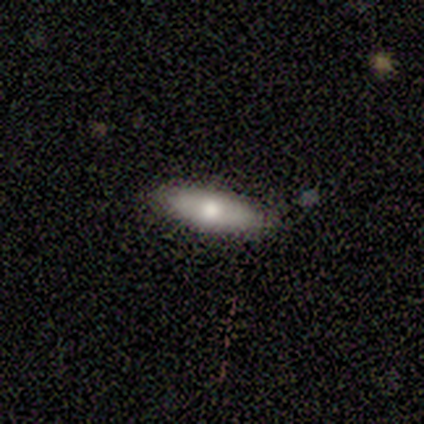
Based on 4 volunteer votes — Morphology: type=smooth (50%, tied with featured or disk); roundness=in between (50%, tied with cigar-shaped); merging=none (100%).